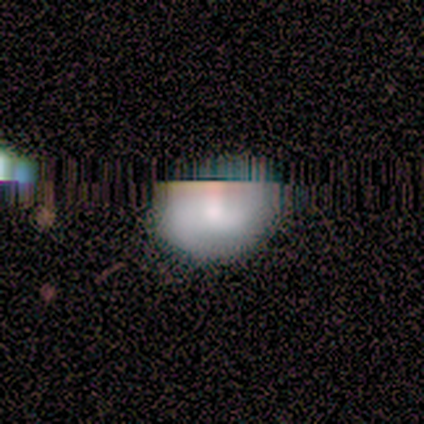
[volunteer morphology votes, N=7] smooth_or_featured: smooth (p=0.43) [alt: featured or disk p=0.29]
how_rounded: round (p=0.67) [alt: in between p=0.33]
merging: none (p=1.00)